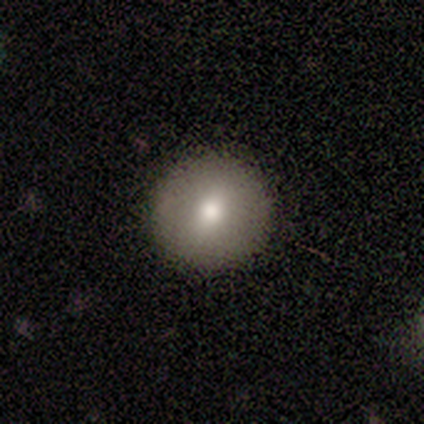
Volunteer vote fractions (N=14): Volunteers were most divided on "smooth or featured": smooth: 71%, featured or disk: 21%, star or artifact: 7%. More confident: how rounded — round (100%); merging — none (92%).